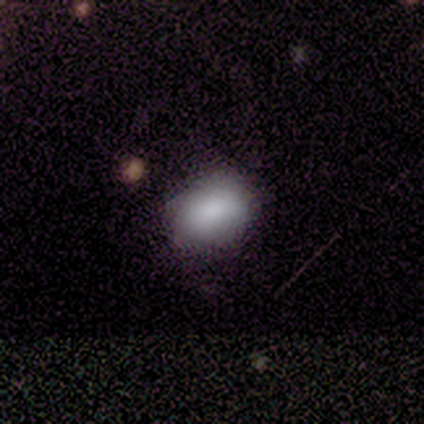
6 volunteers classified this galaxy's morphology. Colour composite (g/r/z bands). It shows a smooth galaxy with no disk features (83%) that is in between round and cigar-shaped (60%). Merging: none (67%).